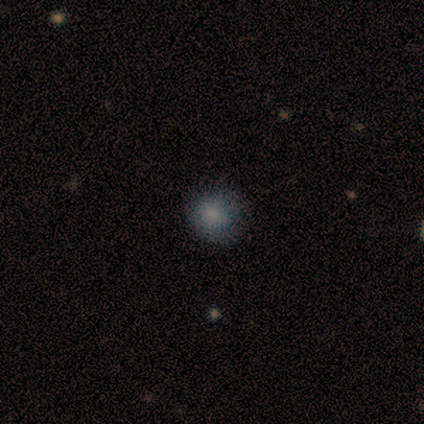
Smooth or featured: smooth — 100%
How rounded: round — 100%
Merging: none — 100%